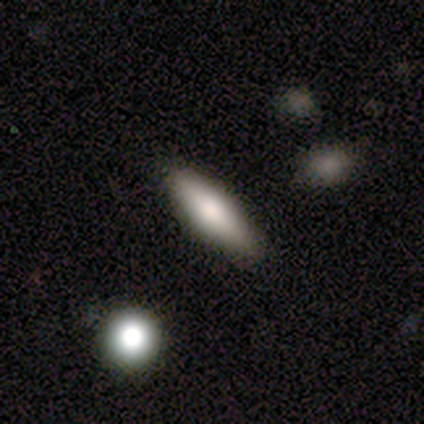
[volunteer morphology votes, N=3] This is clearly a smooth galaxy (100%). How rounded: likely in between (67%). Merging: clearly none (100%).